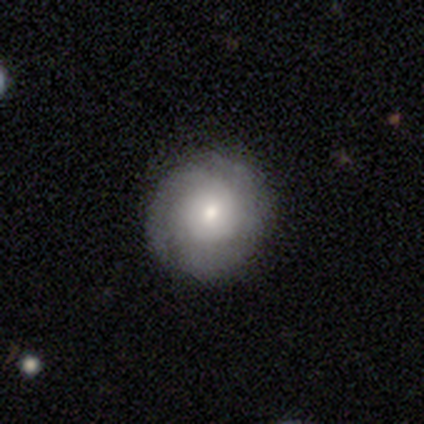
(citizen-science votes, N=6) Volunteers were most divided on "spiral arm count" (2-way tie): 2: 40%, can't tell: 40%, 3: 20%, 1: 0%, 4: 0%, more than 4: 0%. More confident: smooth or featured — featured or disk (100%); edge-on disk — no (100%); bar — no (100%); merging — none (100%); spiral arms — yes (83%); spiral winding — tight (60%); bulge size — moderate (50%).